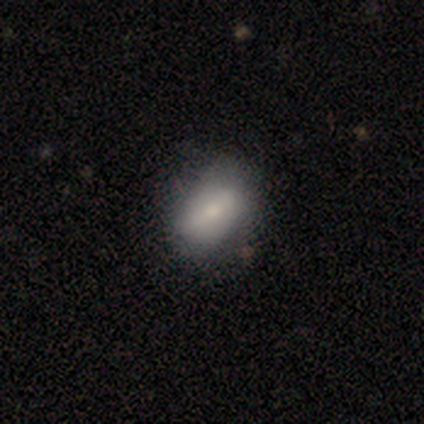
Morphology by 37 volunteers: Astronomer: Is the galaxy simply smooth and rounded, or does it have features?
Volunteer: smooth — 73%.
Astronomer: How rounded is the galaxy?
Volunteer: in between — 74%.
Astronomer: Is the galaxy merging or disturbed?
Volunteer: none — 59%.